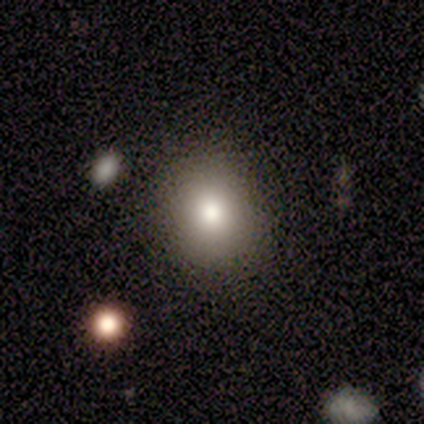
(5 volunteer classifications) A smooth galaxy with no disk features (60%) that is round (67%). Merging: none (100%).